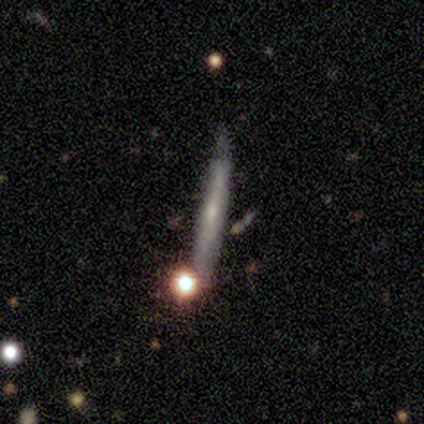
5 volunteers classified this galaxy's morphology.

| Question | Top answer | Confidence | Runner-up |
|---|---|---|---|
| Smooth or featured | smooth | 60% | featured or disk (40%) |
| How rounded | cigar-shaped | 100% | — |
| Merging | none | 80% | minor disturbance (20%) |